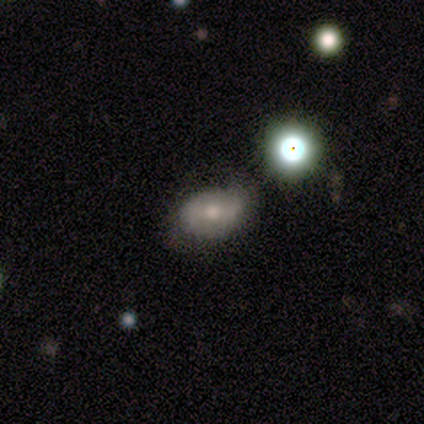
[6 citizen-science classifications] This appears to be a smooth galaxy with no disk features (50%, tied with featured or disk) that is in between round and cigar-shaped (100%). Merging: none (50%, tied with minor disturbance).